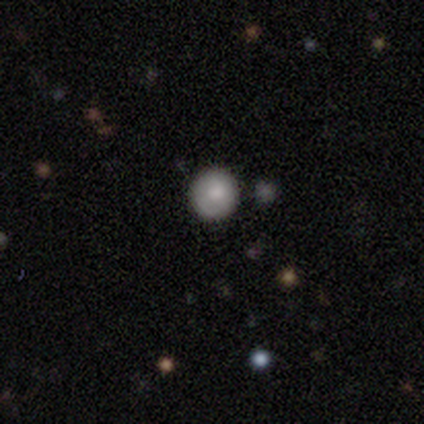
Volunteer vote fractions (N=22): This is likely a smooth galaxy (77%). How rounded: clearly round (94%). Merging: clearly none (89%).